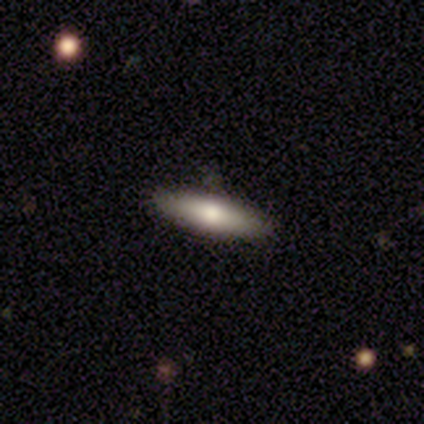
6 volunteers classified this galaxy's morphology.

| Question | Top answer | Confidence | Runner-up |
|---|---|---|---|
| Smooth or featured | smooth | 83% | featured or disk (17%) |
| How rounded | cigar-shaped | 60% | in between (40%) |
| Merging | none | 67% | minor disturbance (17%) |